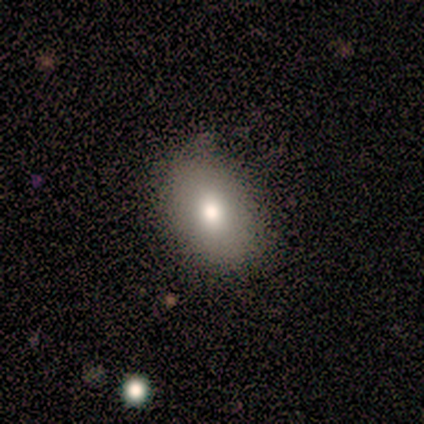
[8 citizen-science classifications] Q: Smooth or featured?
A: smooth (88%); runner-up: featured or disk (12%)
Q: How rounded?
A: in between (100%)
Q: Merging?
A: none (75%); runner-up: minor disturbance (25%)